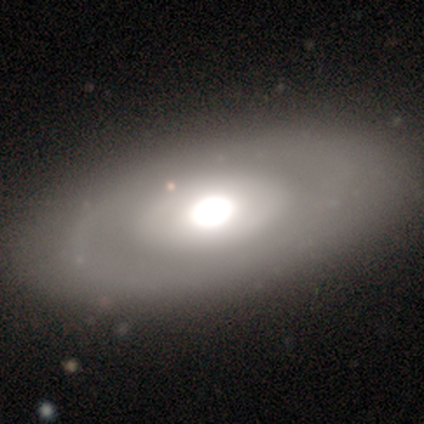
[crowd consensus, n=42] featured or disk 57%, smooth 40%, star or artifact 2%. Down the decision tree: edge-on disk — no (100%); bar — no (96%); spiral arms — no (96%); bulge size — dominant (46%); merging — none (59%).